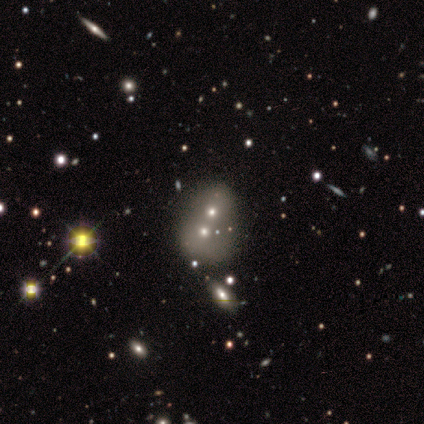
Smooth or featured: smooth — 80% (star or artifact — 20%)
How rounded: round — 100%
Merging: merger — 100%